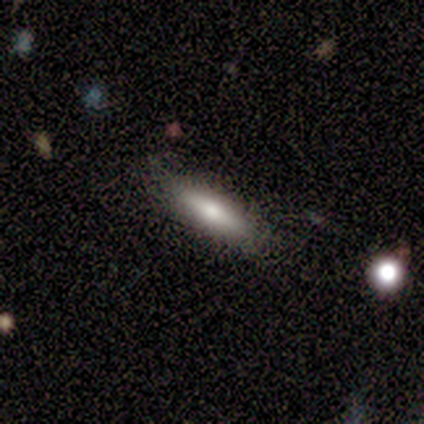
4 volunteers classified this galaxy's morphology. Smooth or featured?
  - smooth: 100% *
  - featured or disk: 0%
  - star or artifact: 0%
How rounded?
  - cigar-shaped: 75% *
  - in between: 25%
  - round: 0%
Merging?
  - none: 75% *
  - minor disturbance: 25%
  - major disturbance: 0%
  - merger: 0%